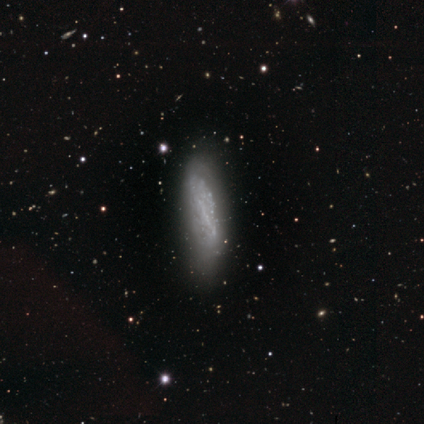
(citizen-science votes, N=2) A featured or disk galaxy (100%) viewed edge-on (100%) with no central bulge (100%). Merging: none (100%).